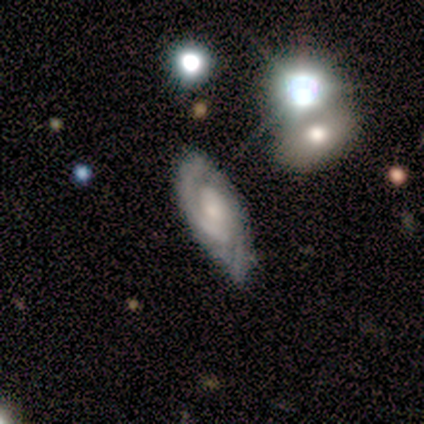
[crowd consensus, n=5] smooth_or_featured: featured or disk (p=0.80) [alt: smooth p=0.20]
disk_edge_on: no (p=1.00)
bar: weak (p=0.50) [tied with: no p=0.50]
has_spiral_arms: yes (p=1.00)
spiral_winding: tight (p=0.75) [alt: medium p=0.25]
spiral_arm_count: 2 (p=1.00)
bulge_size: moderate (p=0.50) [tied with: small p=0.50]
merging: none (p=0.80) [alt: minor disturbance p=0.20]